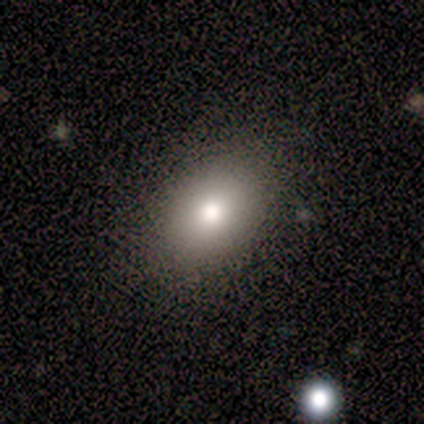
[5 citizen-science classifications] This appears to be a smooth galaxy with no disk features (80%) that is in between round and cigar-shaped (100%). Merging: none (100%).